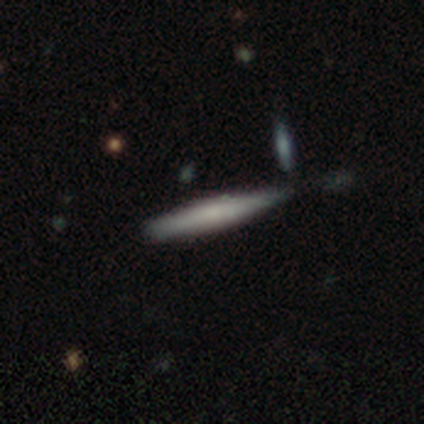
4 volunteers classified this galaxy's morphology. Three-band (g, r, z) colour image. It shows a smooth galaxy with no disk features (50%, tied with featured or disk) that is cigar-shaped (100%). Merging: none (75%).